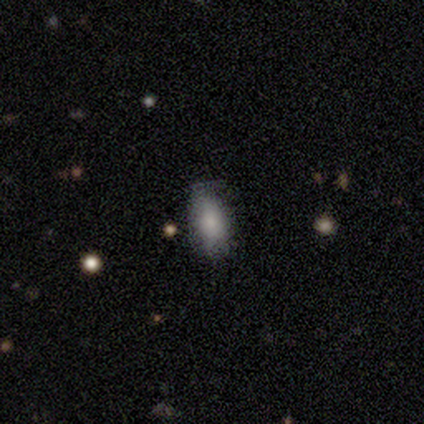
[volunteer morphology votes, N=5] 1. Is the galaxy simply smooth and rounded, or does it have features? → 80% smooth, 20% featured or disk, 0% star or artifact.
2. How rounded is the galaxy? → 100% in between, 0% round, 0% cigar-shaped.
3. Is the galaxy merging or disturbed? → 60% none, 40% minor disturbance, 0% major disturbance, 0% merger.